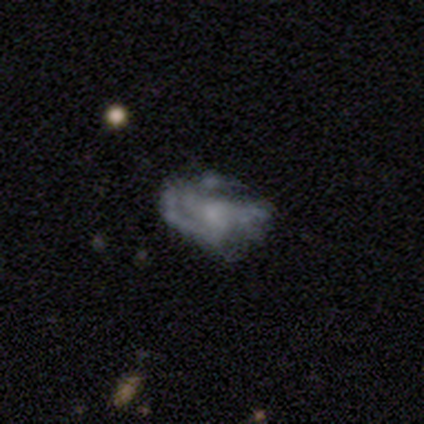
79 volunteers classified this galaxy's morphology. This appears to be a featured or disk galaxy (72%) with no bar (82%), medium (37%) spiral arms (61%) and a small central bulge (40%). Merging: none (44%).